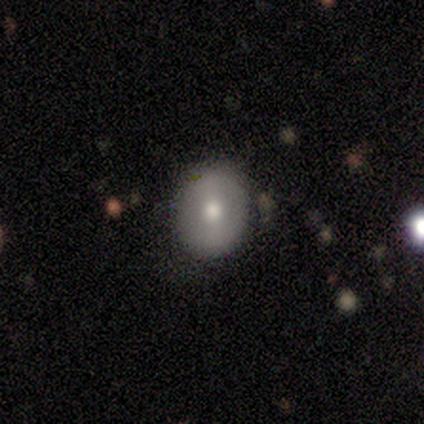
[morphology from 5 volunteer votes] This appears to be a smooth galaxy with no disk features (60%) that is round (100%). Merging: none (80%).